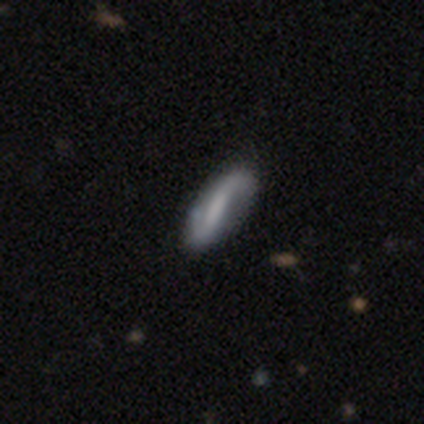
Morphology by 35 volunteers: featured or disk 83%, smooth 11%, star or artifact 6%. Down the decision tree: edge-on disk — no (93%); bar — strong (59%); spiral arms — yes (89%); spiral arm count — 2 (92%); spiral winding — loose (71%); bulge size — none (67%); merging — none (88%).